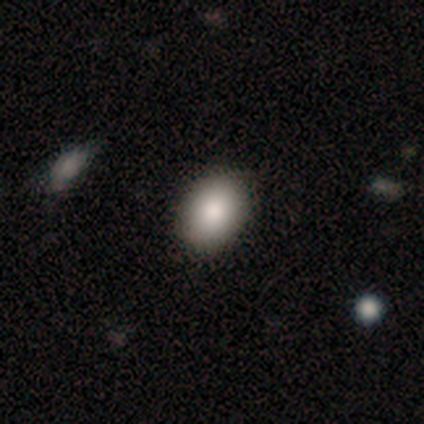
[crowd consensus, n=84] This is clearly a smooth galaxy (88%). How rounded: likely in between (65%). Merging: clearly none (92%).